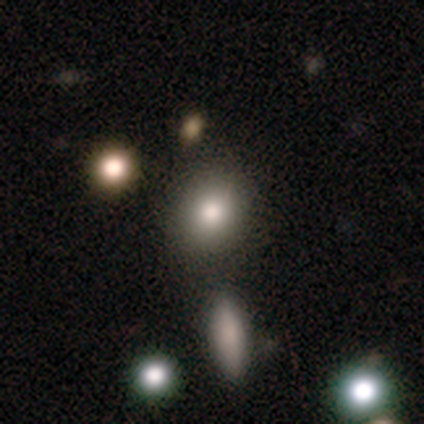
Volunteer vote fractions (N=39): This is likely a smooth galaxy (69%). How rounded: likely round (63%). Merging: likely none (67%).